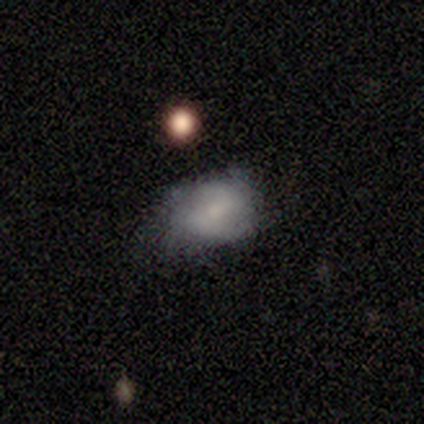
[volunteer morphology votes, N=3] This is likely a smooth galaxy (67%). How rounded: clearly in between (100%). Merging: likely minor disturbance (67%).